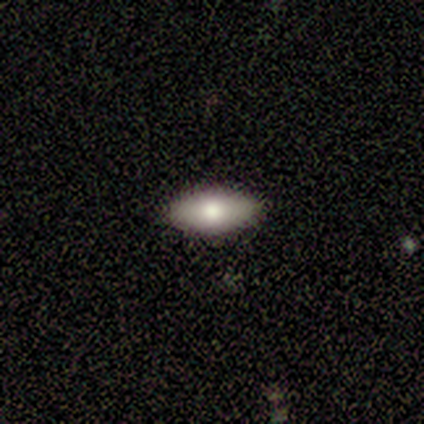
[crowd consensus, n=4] Overall: smooth (75%). How rounded: in between (100%). Merging: none (75%).